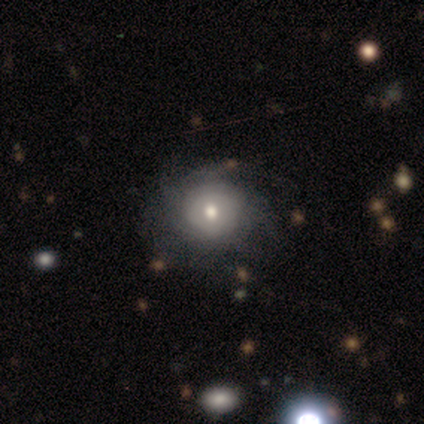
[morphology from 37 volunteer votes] Smooth or featured? featured or disk (51%)
Edge-on disk? no (100%)
Bar? no (95%)
Spiral arms? yes (74%)
Spiral winding? tight (43%)
Spiral arm count? can't tell (64%)
Bulge size? moderate (68%)
Merging? none (73%)